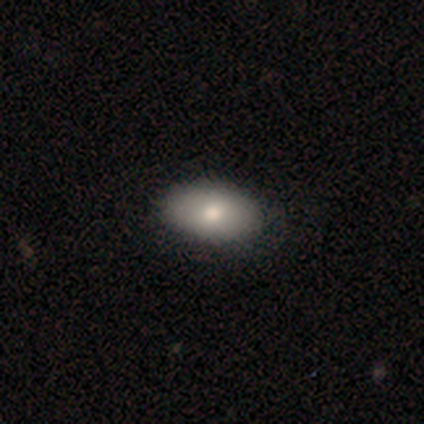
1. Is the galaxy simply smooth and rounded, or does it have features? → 75% smooth, 12% featured or disk, 12% star or artifact.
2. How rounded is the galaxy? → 83% in between, 17% round, 0% cigar-shaped.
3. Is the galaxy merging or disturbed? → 86% none, 14% merger, 0% minor disturbance, 0% major disturbance.